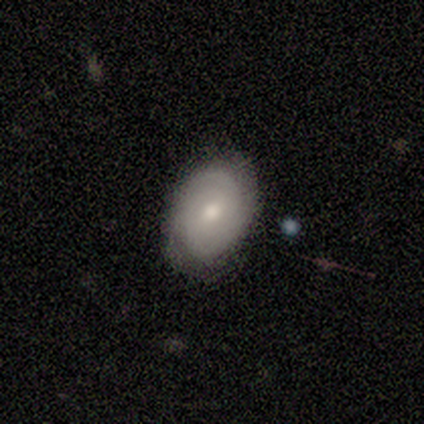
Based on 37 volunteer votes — This is possibly a featured or disk galaxy (54%). It is clearly not viewed edge-on (90%). Bar: possibly no (56%). Spiral arm pattern: clearly yes (100%). Spiral arm count: marginally 2 (44%). Spiral winding: likely tight (72%). Central bulge: likely moderate (78%). Merging: likely none (79%).